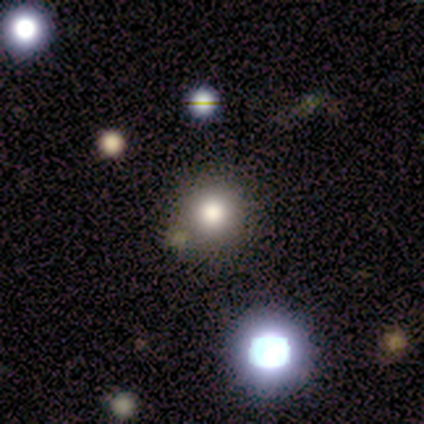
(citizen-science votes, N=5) This appears to be a smooth galaxy with no disk features (100%) that is round (100%). Merging: none (80%).